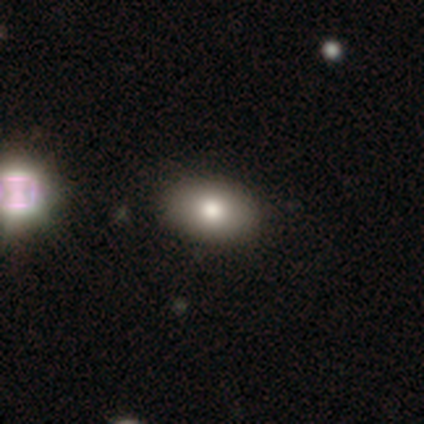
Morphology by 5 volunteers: Smooth or featured: smooth — 80% (featured or disk — 20%)
How rounded: in between — 75% (round — 25%)
Merging: none — 80% (minor disturbance — 20%)